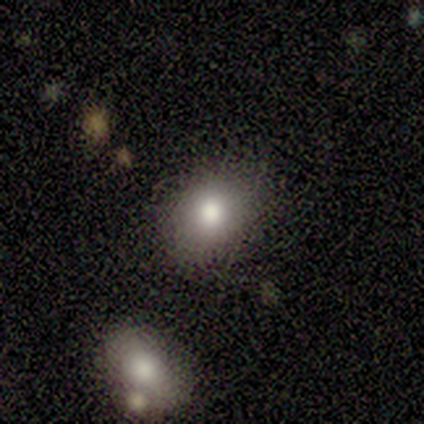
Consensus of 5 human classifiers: Overall: smooth (60%; featured or disk 20%). How rounded: round (67%; in between 33%). Merging: none (100%).